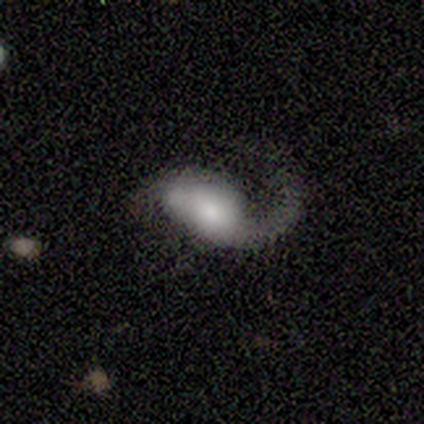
This is likely a featured or disk galaxy (67%). It is clearly not viewed edge-on (100%). Bar: clearly no (100%). Spiral arm pattern: clearly yes (100%). Spiral arm count: clearly 1 (100%). Spiral winding: clearly loose (100%). Central bulge: possibly dominant (50%, tied with moderate). Merging: possibly none (50%, tied with minor disturbance).